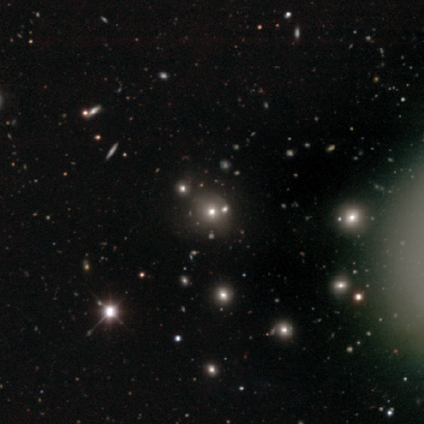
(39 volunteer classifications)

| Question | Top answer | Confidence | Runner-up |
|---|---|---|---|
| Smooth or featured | smooth | 46% | tied: star or artifact (46%) |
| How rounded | round | 78% | in between (22%) |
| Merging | none | 48% | merger (29%) |